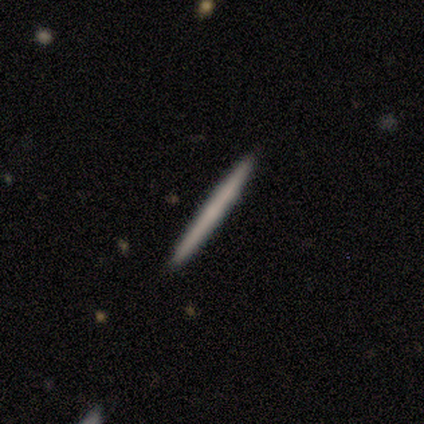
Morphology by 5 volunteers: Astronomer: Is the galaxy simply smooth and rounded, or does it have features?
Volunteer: smooth — 60%.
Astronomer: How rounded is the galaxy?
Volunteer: cigar-shaped — 100%.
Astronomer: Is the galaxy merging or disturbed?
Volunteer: none — 100%.